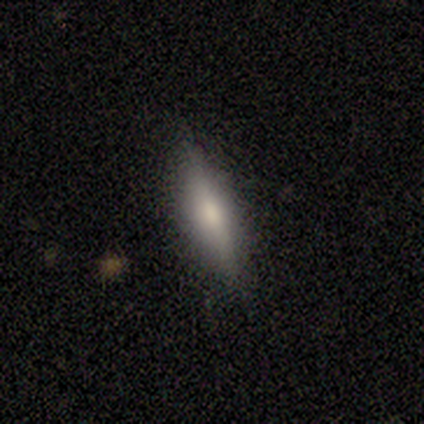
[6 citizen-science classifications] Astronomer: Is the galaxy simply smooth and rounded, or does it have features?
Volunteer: smooth — 50%, tied with featured or disk at 50%.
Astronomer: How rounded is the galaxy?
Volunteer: cigar-shaped — 100%.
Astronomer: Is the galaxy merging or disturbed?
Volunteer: none — 83%.